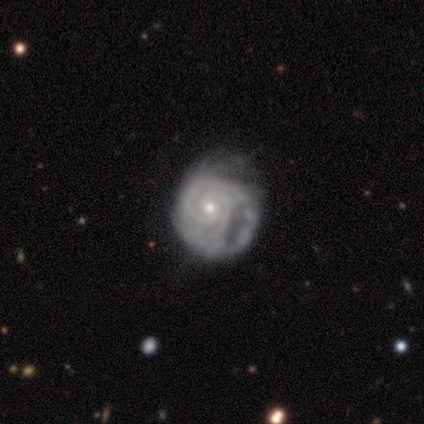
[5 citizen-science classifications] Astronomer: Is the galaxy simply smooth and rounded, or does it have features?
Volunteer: featured or disk — 100%.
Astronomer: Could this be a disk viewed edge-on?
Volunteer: no — 100%.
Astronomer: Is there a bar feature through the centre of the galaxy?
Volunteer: no — 60%.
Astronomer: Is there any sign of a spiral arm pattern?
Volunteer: yes — 100%.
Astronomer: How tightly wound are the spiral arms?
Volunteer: tight — 100%.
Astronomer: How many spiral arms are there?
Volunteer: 2 — 80%.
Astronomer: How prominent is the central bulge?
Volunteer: small — 60% (runner-up: moderate, 40%).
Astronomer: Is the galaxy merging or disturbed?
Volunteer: minor disturbance — 60%.